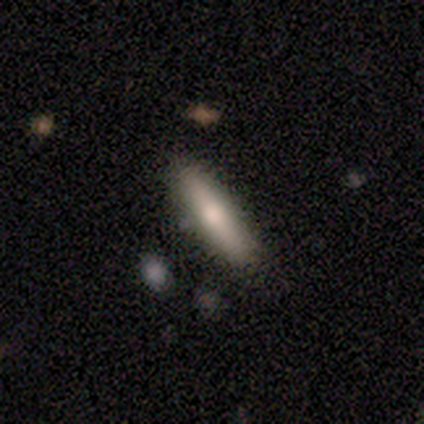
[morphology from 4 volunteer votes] This is likely a smooth galaxy (75%). How rounded: clearly cigar-shaped (100%). Merging: likely none (75%).